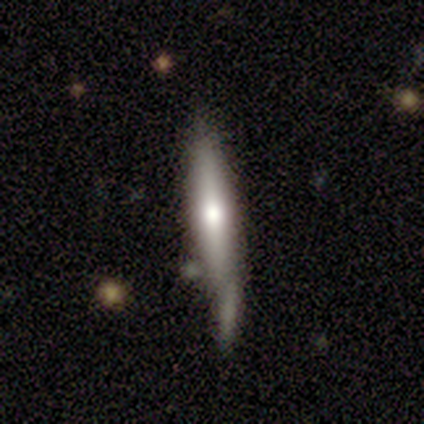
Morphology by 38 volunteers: Q: Smooth or featured?
A: smooth (50%); runner-up: featured or disk (47%)
Q: How rounded?
A: cigar-shaped (89%); runner-up: in between (11%)
Q: Merging?
A: none (46%); runner-up: minor disturbance (30%)